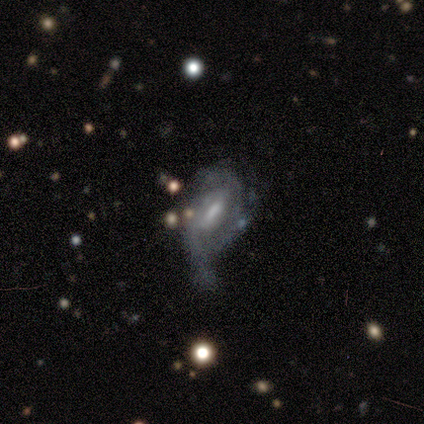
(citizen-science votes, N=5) Smooth or featured: featured or disk — 100%
Edge-on disk: no — 100%
Bar: strong — 60% (weak — 40%)
Spiral arms: yes — 100%
Spiral winding: medium — 60% (tight — 20%)
Spiral arm count: 2 — 40% (1 — 20%)
Bulge size: moderate — 100%
Merging: minor disturbance — 60% (none — 20%)